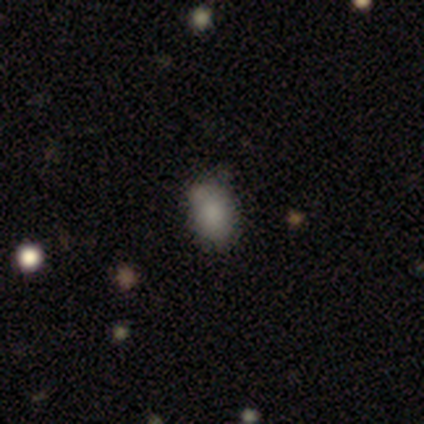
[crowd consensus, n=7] smooth-or-featured: smooth: 100% | featured or disk: 0% | star or artifact: 0%
  how-rounded: in between: 71% | round: 29% | cigar-shaped: 0%
  merging: none: 57% | minor disturbance: 43% | major disturbance: 0% | merger: 0%